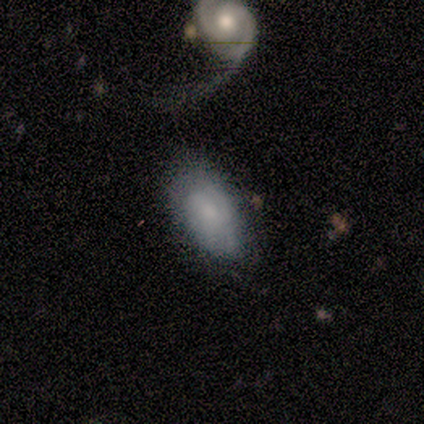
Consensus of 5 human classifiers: Q: Smooth or featured?
A: featured or disk (60%); runner-up: smooth (40%)
Q: Edge-on disk?
A: no (100%)
Q: Bar?
A: weak (67%); runner-up: no (33%)
Q: Spiral arms?
A: yes (100%)
Q: Spiral winding?
A: tight (67%); runner-up: medium (33%)
Q: Spiral arm count?
A: 1 (33%); tied with: 2 (33%); 3 (33%)
Q: Bulge size?
A: moderate (33%); tied with: small (33%); none (33%)
Q: Merging?
A: minor disturbance (80%); runner-up: merger (20%)